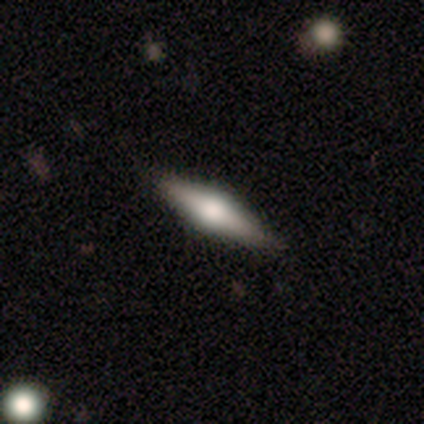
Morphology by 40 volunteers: Q: Smooth or featured?
A: featured or disk (55%); runner-up: smooth (38%)
Q: Edge-on disk?
A: yes (100%)
Q: Edge-on bulge?
A: rounded (91%); runner-up: boxy (9%)
Q: Merging?
A: none (51%); runner-up: minor disturbance (3%)